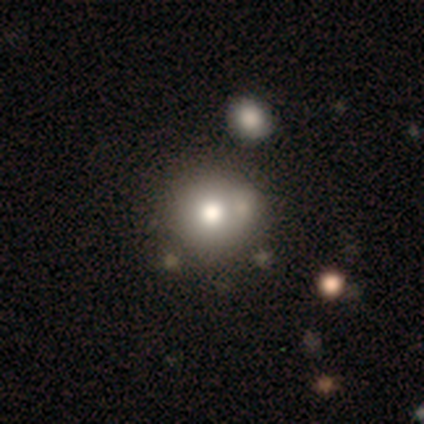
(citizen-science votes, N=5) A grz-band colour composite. It shows a smooth galaxy with no disk features (100%) that is round (100%). Merging: none (40%, tied with merger).